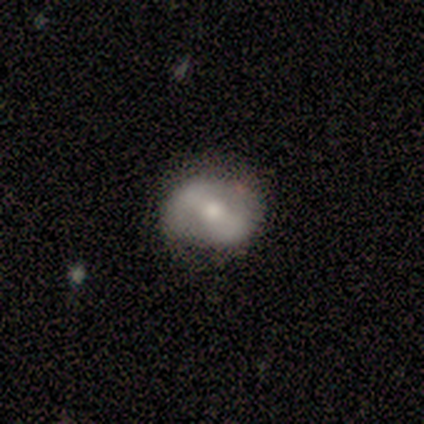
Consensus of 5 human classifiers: featured or disk 80%, smooth 20%, star or artifact 0%. Down the decision tree: edge-on disk — no (100%); bar — weak (75%); spiral arms — yes (50%, tied with no); spiral arm count — 2 (100%); spiral winding — medium (50%, tied with loose); bulge size — moderate (100%); merging — none (60%).